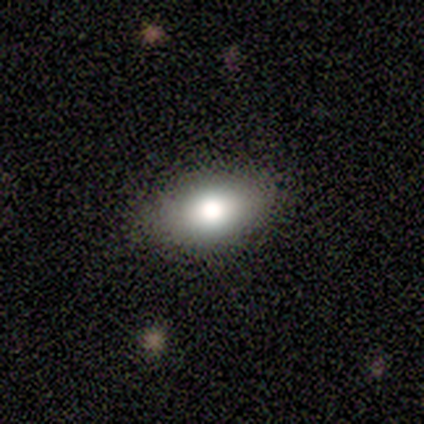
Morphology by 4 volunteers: A smooth galaxy with no disk features (100%) that is in between round and cigar-shaped (100%).

Vote fractions:
- Smooth or featured? smooth: 100% / featured or disk: 0% / star or artifact: 0%
- How rounded? in between: 100% / round: 0% / cigar-shaped: 0%
- Merging? none: 50% (tied) / minor disturbance: 50% (tied) / major disturbance: 0% / merger: 0%